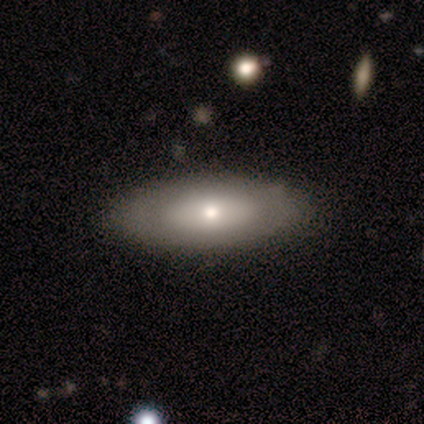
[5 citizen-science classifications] A smooth galaxy with no disk features (100%) that is in between round and cigar-shaped (100%).

Vote fractions:
- Smooth or featured? smooth: 100% / featured or disk: 0% / star or artifact: 0%
- How rounded? in between: 100% / round: 0% / cigar-shaped: 0%
- Merging? none: 100% / minor disturbance: 0% / major disturbance: 0% / merger: 0%